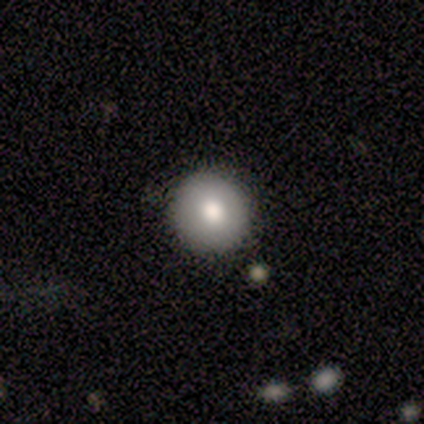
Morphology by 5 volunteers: Overall: smooth (100%). How rounded: round (100%). Merging: none (100%).